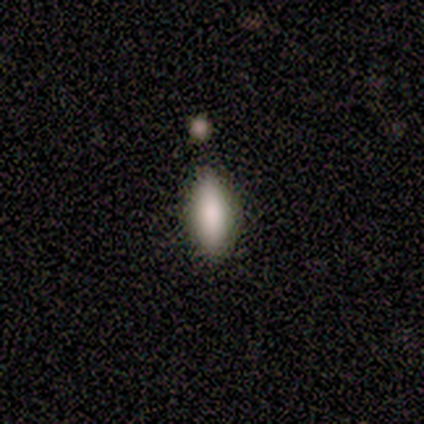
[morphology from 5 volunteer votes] Consensus on every question: smooth or featured — smooth (100%); how rounded — in between (100%); merging — none (100%).